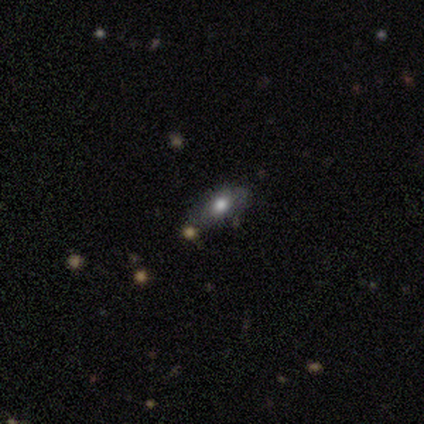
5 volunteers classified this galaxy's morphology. Smooth or featured: smooth — 60% (featured or disk — 40%)
How rounded: in between — 100%
Merging: none — 100%